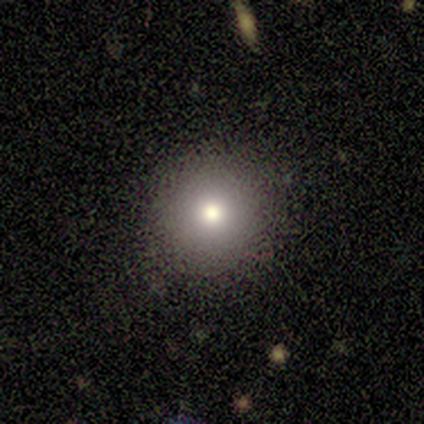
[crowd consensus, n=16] Smooth or featured?
  - smooth: 69% *
  - star or artifact: 19%
  - featured or disk: 12%
How rounded?
  - round: 100% *
  - in between: 0%
  - cigar-shaped: 0%
Merging?
  - none: 92% *
  - minor disturbance: 8%
  - major disturbance: 0%
  - merger: 0%